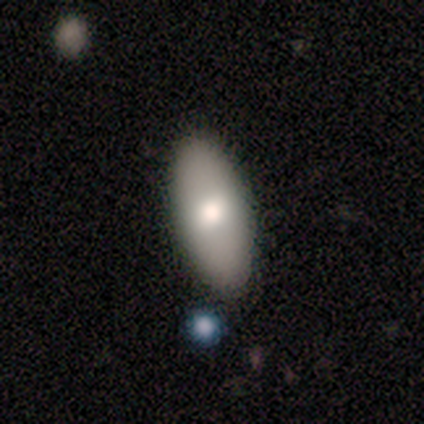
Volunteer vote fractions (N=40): Smooth or featured? 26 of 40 (65%) said smooth. How rounded? 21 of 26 (81%) said in between. Merging? 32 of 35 (91%) said none.